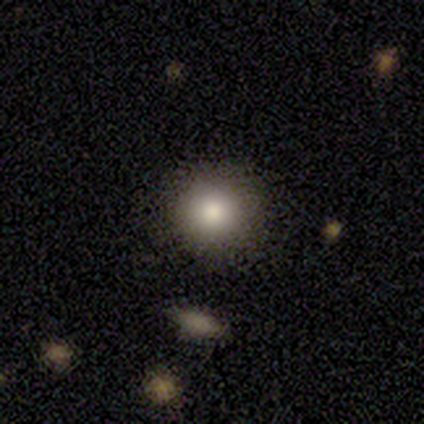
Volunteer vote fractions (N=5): Smooth or featured? smooth (80%)
How rounded? round (75%)
Merging? none (100%)